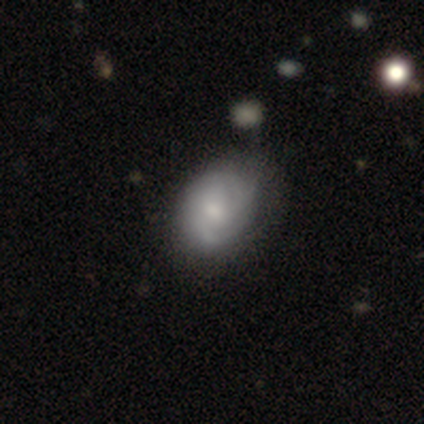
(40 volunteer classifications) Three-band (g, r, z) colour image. It shows a featured or disk galaxy (60%) with no bar (71%), medium (41%) spiral arms (92%) and a moderate central bulge (54%). Merging: none (51%).